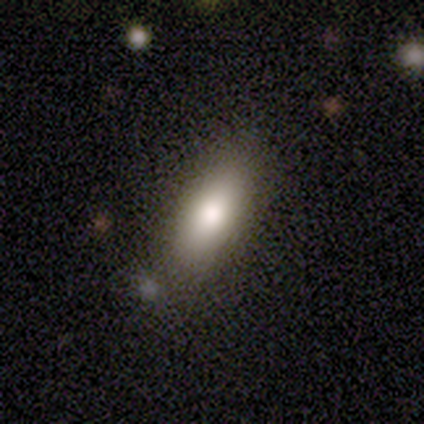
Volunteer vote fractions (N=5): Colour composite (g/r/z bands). It shows a smooth galaxy with no disk features (100%) that is in between round and cigar-shaped (60%). Merging: none (80%).